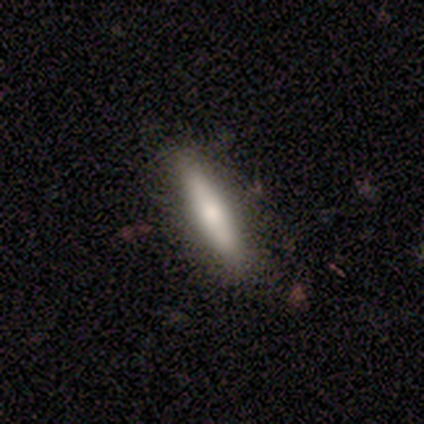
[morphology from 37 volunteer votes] Smooth or featured: smooth — 62% (featured or disk — 32%)
How rounded: cigar-shaped — 65% (in between — 35%)
Merging: none — 86% (minor disturbance — 9%)